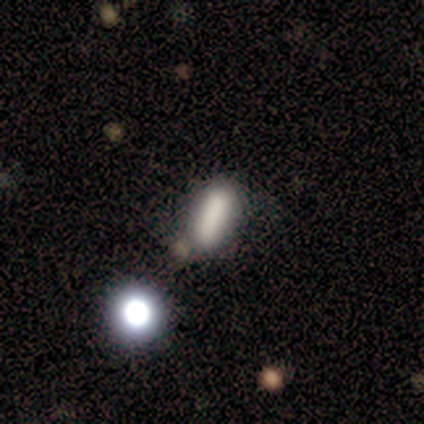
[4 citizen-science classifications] Morphology: type=smooth (100%); roundness=in between (50%, tied with cigar-shaped); merging=none (50%, tied with minor disturbance).